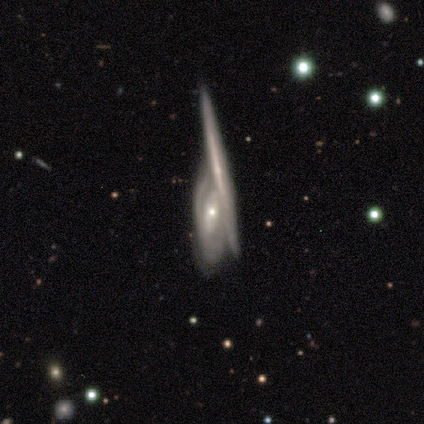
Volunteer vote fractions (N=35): This is likely a featured or disk galaxy (77%). It is possibly not viewed edge-on (56%). Bar: likely no (73%). Spiral arm pattern: likely yes (67%). Spiral arm count: marginally can't tell (40%). Spiral winding: likely tight (60%). Central bulge: clearly small (87%). Merging: possibly merger (48%).